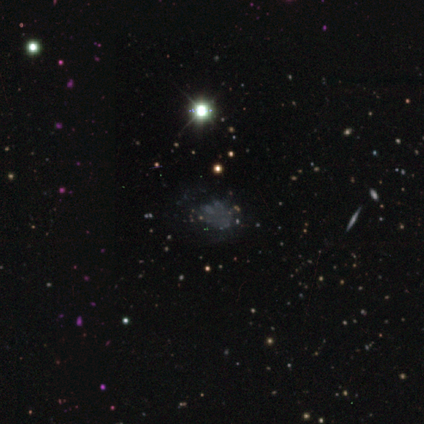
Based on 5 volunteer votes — Morphology: type=star or artifact (60%).